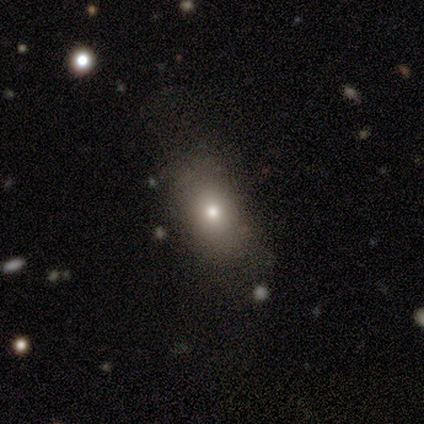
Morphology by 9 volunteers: This is likely a smooth galaxy (67%). How rounded: likely in between (67%). Merging: likely none (75%).